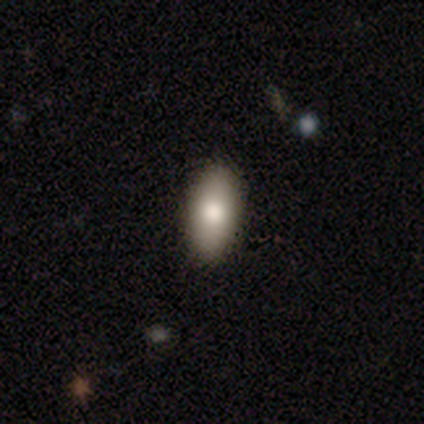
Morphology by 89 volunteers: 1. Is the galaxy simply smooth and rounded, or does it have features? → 83% smooth, 11% featured or disk, 6% star or artifact.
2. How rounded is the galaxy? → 85% in between, 12% cigar-shaped, 3% round.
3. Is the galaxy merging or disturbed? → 89% none, 8% minor disturbance, 1% major disturbance, 1% merger.